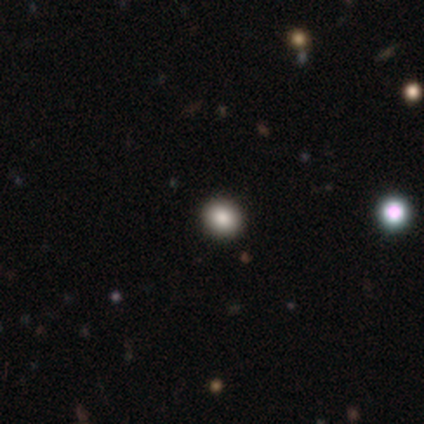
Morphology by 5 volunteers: smooth_or_featured: smooth (p=1.00)
how_rounded: round (p=0.60) [alt: in between p=0.40]
merging: none (p=1.00)